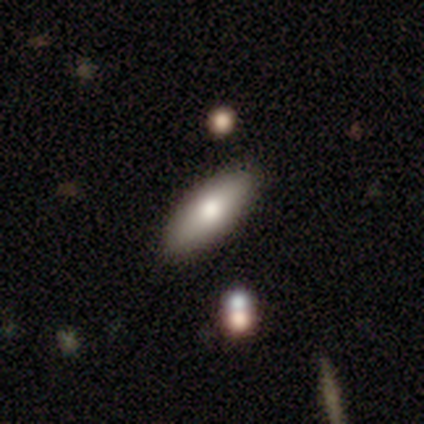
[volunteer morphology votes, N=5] Q: Smooth or featured?
A: smooth (60%); runner-up: featured or disk (40%)
Q: How rounded?
A: in between (67%); runner-up: cigar-shaped (33%)
Q: Merging?
A: none (100%)